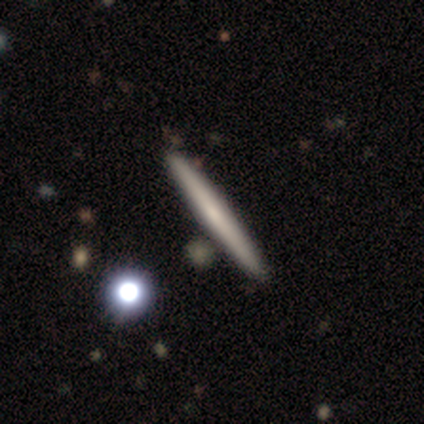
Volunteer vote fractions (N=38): smooth-or-featured: smooth: 50% | featured or disk: 45% | star or artifact: 5%
  how-rounded: cigar-shaped: 100% | round: 0% | in between: 0%
  merging: none: 61% | minor disturbance: 6% | major disturbance: 0% | merger: 0%